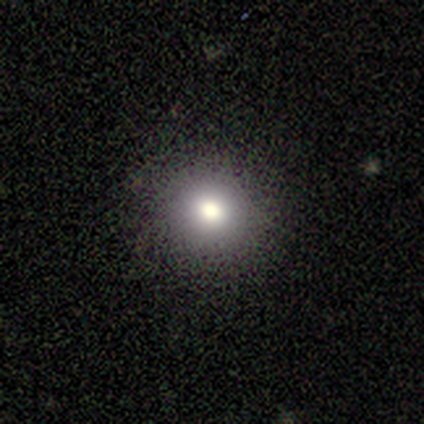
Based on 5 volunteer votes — smooth 80%, featured or disk 20%, star or artifact 0%. Down the decision tree: how rounded — round (100%); merging — none (80%).